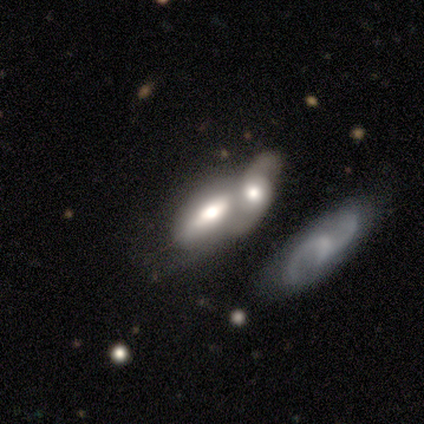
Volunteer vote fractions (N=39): Smooth or featured? 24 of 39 (62%) said featured or disk. Edge-on disk? 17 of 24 (71%) said no. Bar? 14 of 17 (82%) said no. Spiral arms? 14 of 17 (82%) said no. Bulge size? 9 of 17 (53%) said large. Merging? 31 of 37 (84%) said merger.